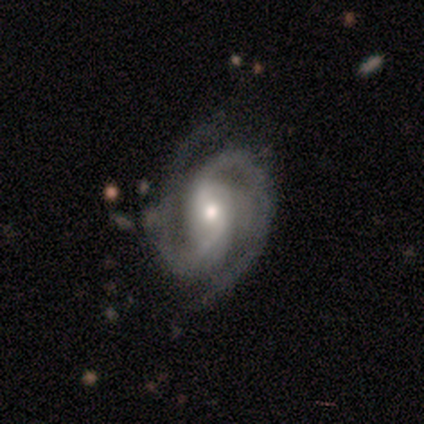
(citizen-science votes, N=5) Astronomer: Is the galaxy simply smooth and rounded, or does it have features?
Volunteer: featured or disk — 80%.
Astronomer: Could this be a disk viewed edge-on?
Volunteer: no — 100%.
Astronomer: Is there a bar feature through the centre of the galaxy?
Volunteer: strong — 50%.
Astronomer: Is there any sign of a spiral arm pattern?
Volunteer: yes — 100%.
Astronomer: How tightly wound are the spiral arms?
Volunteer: medium — 50%.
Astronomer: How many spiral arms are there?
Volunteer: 2 — 50%, tied with 4 at 50%.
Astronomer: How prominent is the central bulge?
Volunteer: moderate — 75%.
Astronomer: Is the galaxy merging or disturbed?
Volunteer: none — 80%.